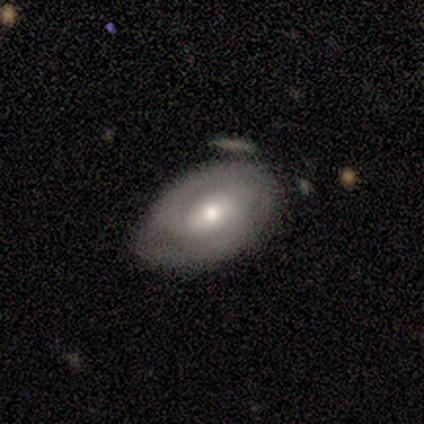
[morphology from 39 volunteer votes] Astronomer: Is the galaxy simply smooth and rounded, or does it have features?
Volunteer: featured or disk — 64%.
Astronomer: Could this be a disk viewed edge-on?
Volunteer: no — 92%.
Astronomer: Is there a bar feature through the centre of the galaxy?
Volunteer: weak — 61%.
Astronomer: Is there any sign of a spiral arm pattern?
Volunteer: yes — 96%.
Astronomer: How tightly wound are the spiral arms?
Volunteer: medium — 50% (runner-up: tight, 41%).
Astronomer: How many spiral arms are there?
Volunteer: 2 — 64%.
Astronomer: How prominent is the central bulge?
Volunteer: moderate — 57% (runner-up: small, 39%).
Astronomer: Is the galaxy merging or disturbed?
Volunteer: none — 46% (runner-up: minor disturbance, 41%).